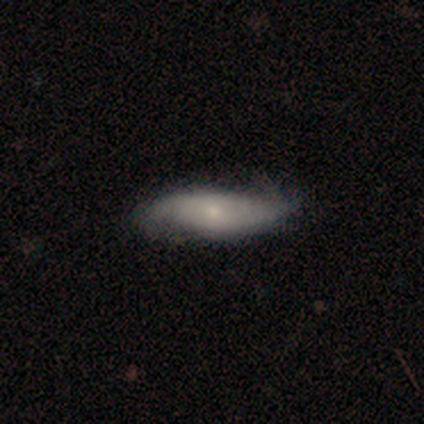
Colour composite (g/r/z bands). It shows a featured or disk galaxy (100%) with no bar (60%), 2 (80%) medium (40%, tied with loose) spiral arms (100%) and a small central bulge (60%). Merging: none (80%).